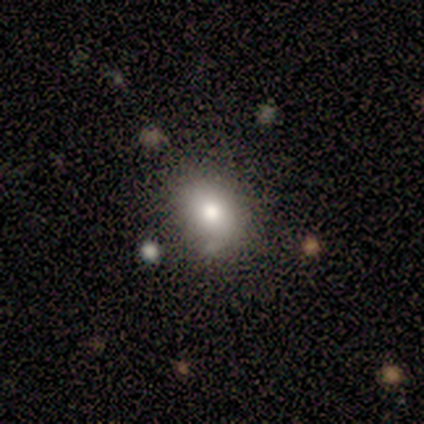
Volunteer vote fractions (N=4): Volunteers were most divided on "how rounded" (2-way tie): in between: 50%, cigar-shaped: 50%, round: 0%. More confident: merging — none (100%); smooth or featured — smooth (50%).